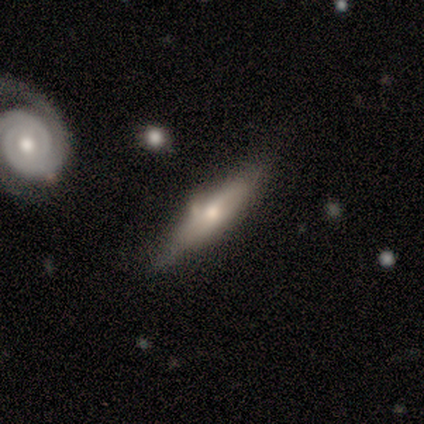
Smooth or featured? 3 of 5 (60%) said smooth. How rounded? 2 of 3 (67%) said cigar-shaped. Merging? 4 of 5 (80%) said none.